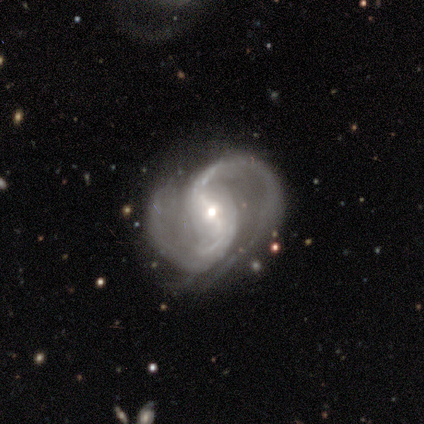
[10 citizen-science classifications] Smooth or featured? 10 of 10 (100%) said featured or disk. Edge-on disk? 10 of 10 (100%) said no. Bar? 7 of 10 (70%) said strong. Spiral arms? 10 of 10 (100%) said yes. Spiral winding? 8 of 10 (80%) said loose. Spiral arm count? 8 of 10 (80%) said 2. Bulge size? 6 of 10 (60%) said moderate. Merging? 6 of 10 (60%) said none.